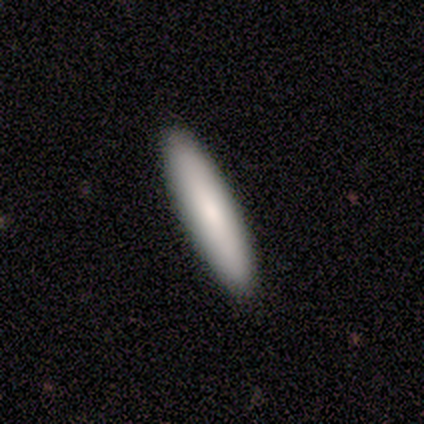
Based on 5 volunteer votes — A smooth galaxy with no disk features (80%) that is cigar-shaped (75%). Merging: none (100%).